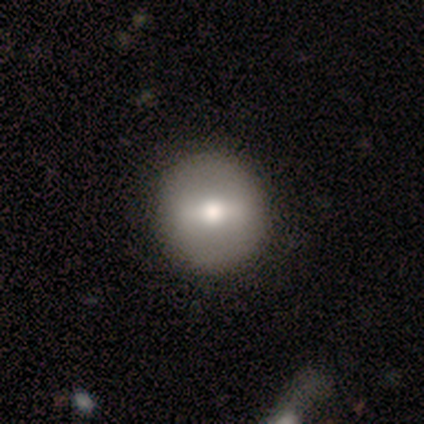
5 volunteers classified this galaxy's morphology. Q: Smooth or featured?
A: featured or disk (60%); runner-up: smooth (40%)
Q: Edge-on disk?
A: no (67%); runner-up: yes (33%)
Q: Bar?
A: strong (50%); tied with: weak (50%)
Q: Spiral arms?
A: yes (50%); tied with: no (50%)
Q: Spiral winding?
A: tight (100%)
Q: Spiral arm count?
A: 2 (100%)
Q: Bulge size?
A: large (50%); tied with: moderate (50%)
Q: Merging?
A: none (80%); runner-up: minor disturbance (20%)